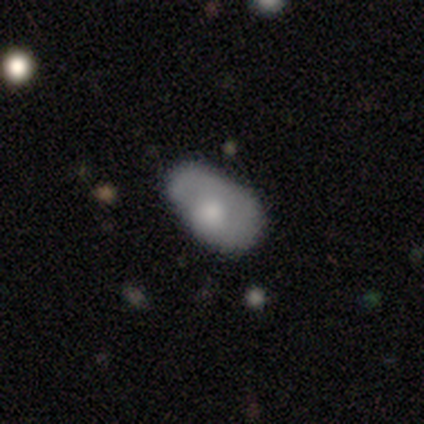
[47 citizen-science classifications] Smooth or featured: smooth — 60% (featured or disk — 32%)
How rounded: in between — 93% (round — 7%)
Merging: none — 42% (minor disturbance — 37%)